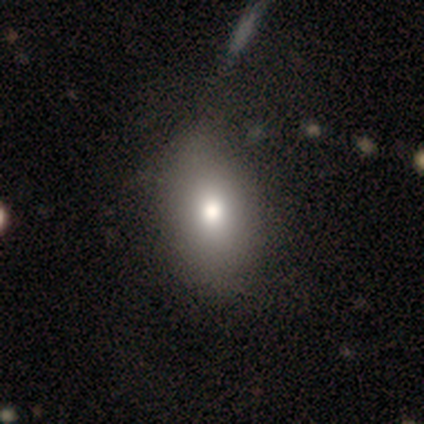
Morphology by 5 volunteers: smooth-or-featured: smooth: 100% | featured or disk: 0% | star or artifact: 0%
  how-rounded: in between: 60% | round: 40% | cigar-shaped: 0%
  merging: none: 80% | major disturbance: 20% | minor disturbance: 0% | merger: 0%